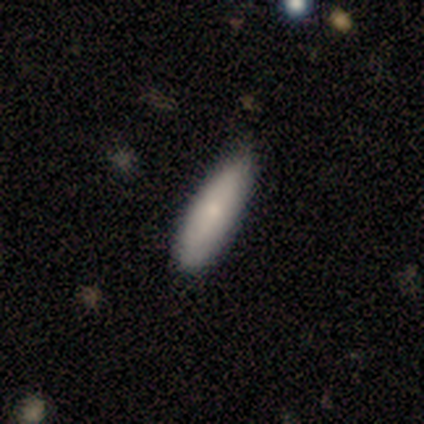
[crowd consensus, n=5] Morphology: type=smooth (80%); roundness=in between (75%); merging=none (80%).